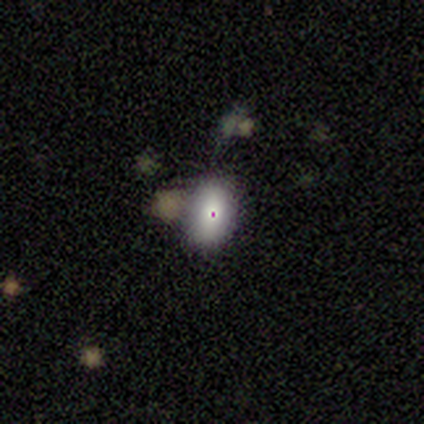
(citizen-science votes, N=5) star or artifact 60%, smooth 40%, featured or disk 0%.